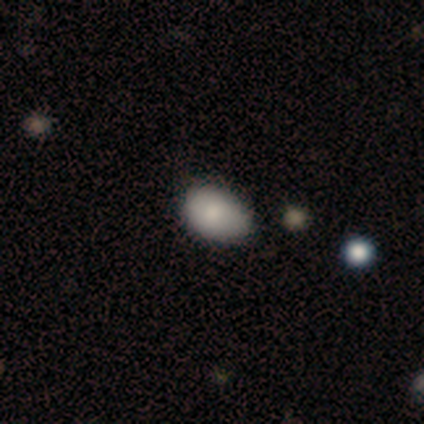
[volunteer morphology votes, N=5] Smooth or featured?
  - smooth: 80% *
  - star or artifact: 20%
  - featured or disk: 0%
How rounded?
  - round: 50% * (tied)
  - in between: 50% * (tied)
  - cigar-shaped: 0%
Merging?
  - none: 75% *
  - minor disturbance: 25%
  - major disturbance: 0%
  - merger: 0%